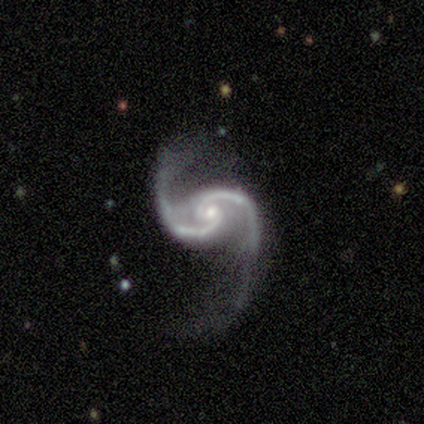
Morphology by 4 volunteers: Volunteers were most divided on "bar" (2-way tie): weak: 50%, no: 50%, strong: 0%. More confident: smooth or featured — featured or disk (100%); edge-on disk — no (100%); spiral arms — yes (100%); spiral arm count — 2 (100%); bulge size — small (75%); spiral winding — tight (50%); merging — none (50%).